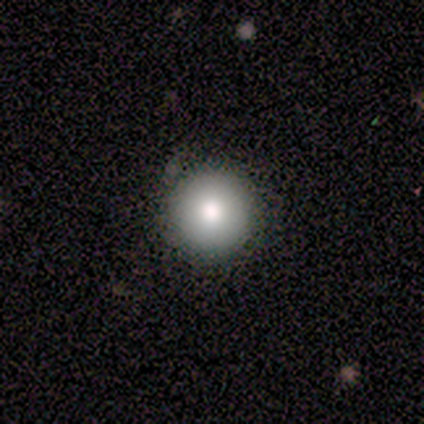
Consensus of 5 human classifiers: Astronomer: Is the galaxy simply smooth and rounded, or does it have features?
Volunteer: smooth — 80%.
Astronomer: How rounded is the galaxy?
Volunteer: round — 75%.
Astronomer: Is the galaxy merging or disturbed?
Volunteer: none — 75%.